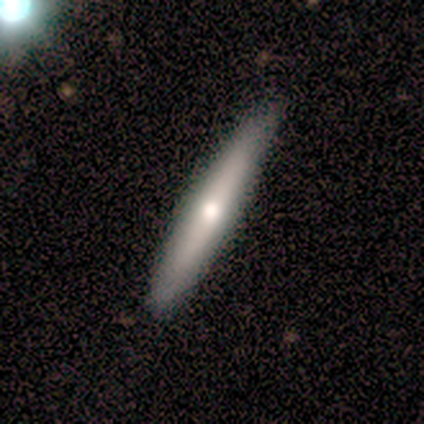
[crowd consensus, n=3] Q: Smooth or featured?
A: featured or disk (67%); runner-up: smooth (33%)
Q: Edge-on disk?
A: yes (100%)
Q: Edge-on bulge?
A: boxy (50%); tied with: rounded (50%)
Q: Merging?
A: none (100%)